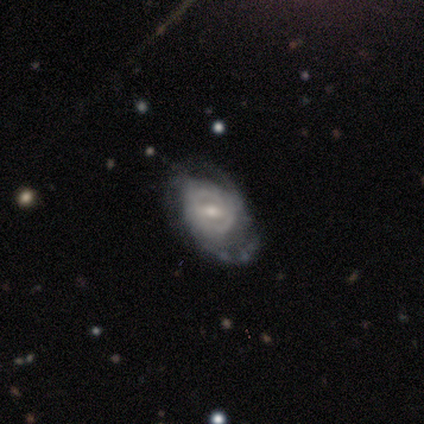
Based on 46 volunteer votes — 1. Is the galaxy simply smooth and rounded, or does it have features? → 78% featured or disk, 17% smooth, 4% star or artifact.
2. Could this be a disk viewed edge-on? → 97% no, 3% yes.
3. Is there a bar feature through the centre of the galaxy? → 51% weak, 29% strong, 20% no.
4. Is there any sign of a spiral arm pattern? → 86% yes, 14% no.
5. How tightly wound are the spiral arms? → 70% tight, 20% medium, 10% loose.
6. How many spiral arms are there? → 53% can't tell, 27% 2, 17% 3, 3% more than 4, 0% 1, 0% 4.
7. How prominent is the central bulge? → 51% moderate, 37% small, 9% large, 3% dominant, 0% none.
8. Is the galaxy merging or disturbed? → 64% none, 25% minor disturbance, 9% major disturbance, 2% merger.